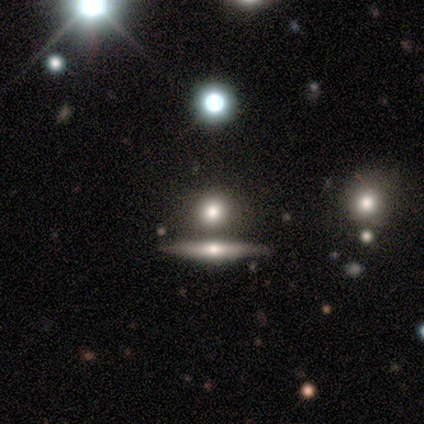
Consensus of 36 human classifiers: Morphology: type=smooth (61%); roundness=round (82%); merging=none (73%).